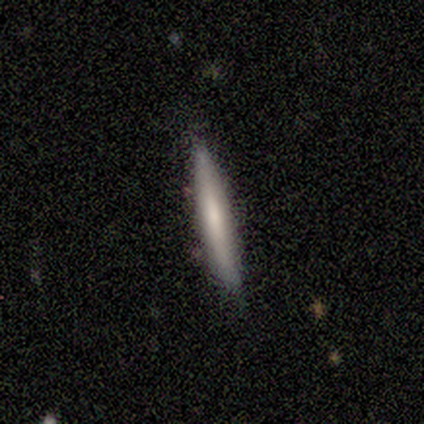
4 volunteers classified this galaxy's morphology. Smooth or featured? 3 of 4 (75%) said smooth. How rounded? 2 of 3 (67%) said cigar-shaped. Merging? 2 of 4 (50%, tied with minor disturbance) said none.